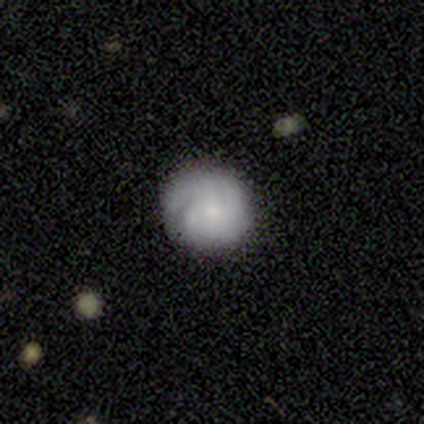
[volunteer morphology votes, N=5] smooth-or-featured: smooth: 40% (tied) | featured or disk: 40% (tied) | star or artifact: 20%
  how-rounded: round: 50% (tied) | in between: 50% (tied) | cigar-shaped: 0%
  merging: none: 75% | minor disturbance: 25% | major disturbance: 0% | merger: 0%